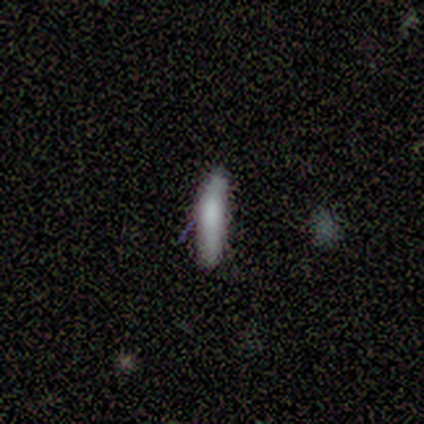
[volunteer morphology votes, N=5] This is clearly a smooth galaxy (100%). How rounded: clearly cigar-shaped (80%). Merging: likely none (60%).